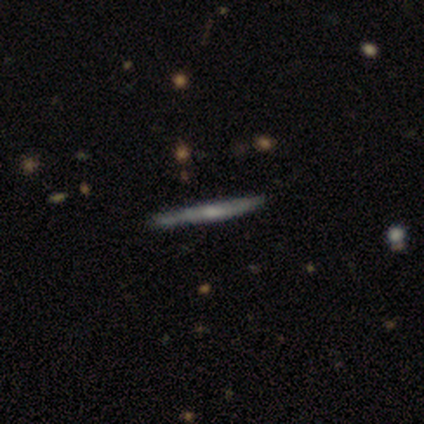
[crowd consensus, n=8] Q: Smooth or featured?
A: smooth (62%); runner-up: featured or disk (38%)
Q: How rounded?
A: cigar-shaped (100%)
Q: Merging?
A: none (100%)